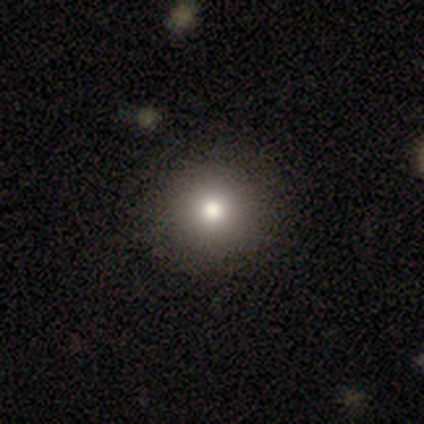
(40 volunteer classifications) smooth 90%, featured or disk 8%, star or artifact 2%. Down the decision tree: how rounded — round (92%); merging — none (74%).